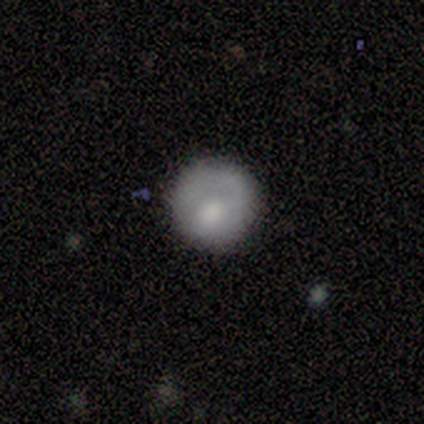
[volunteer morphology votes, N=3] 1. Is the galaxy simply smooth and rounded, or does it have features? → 67% smooth, 33% featured or disk, 0% star or artifact.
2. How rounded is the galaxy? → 100% round, 0% in between, 0% cigar-shaped.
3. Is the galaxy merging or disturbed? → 100% none, 0% minor disturbance, 0% major disturbance, 0% merger.